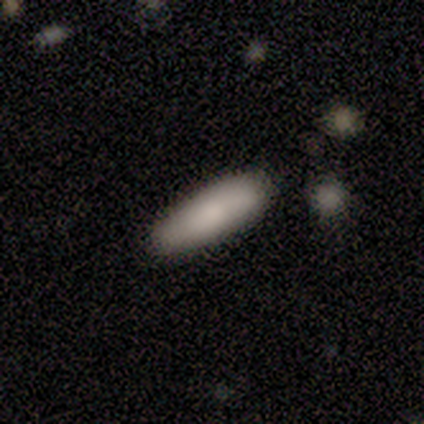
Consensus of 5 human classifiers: Morphology: type=smooth (100%); roundness=in between (60%); merging=none (100%).